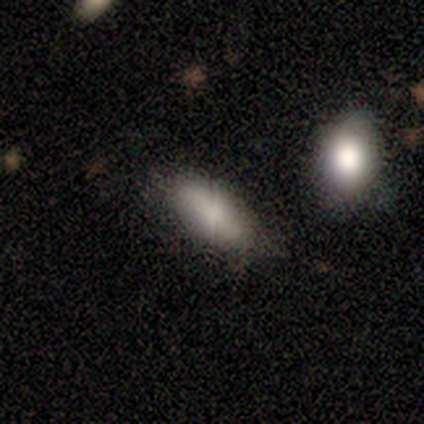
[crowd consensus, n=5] smooth-or-featured: smooth: 80% | star or artifact: 20% | featured or disk: 0%
  how-rounded: in between: 100% | round: 0% | cigar-shaped: 0%
  merging: none: 100% | minor disturbance: 0% | major disturbance: 0% | merger: 0%